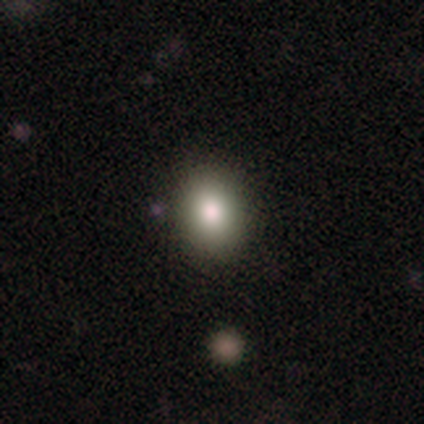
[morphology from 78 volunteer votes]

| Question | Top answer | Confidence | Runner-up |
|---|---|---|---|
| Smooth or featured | smooth | 83% | star or artifact (9%) |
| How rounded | in between | 68% | round (32%) |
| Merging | none | 41% | merger (7%) |